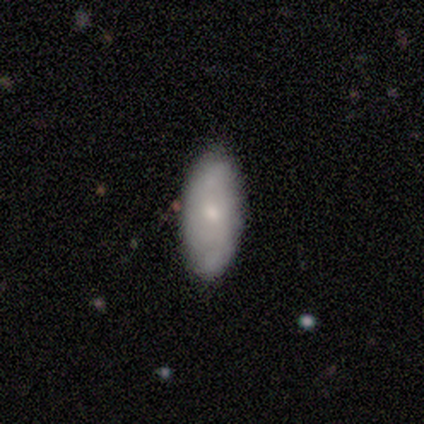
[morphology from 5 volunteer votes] Smooth or featured? 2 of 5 (40%, tied with featured or disk) said smooth. How rounded? 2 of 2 (100%) said in between. Merging? 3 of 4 (75%) said none.